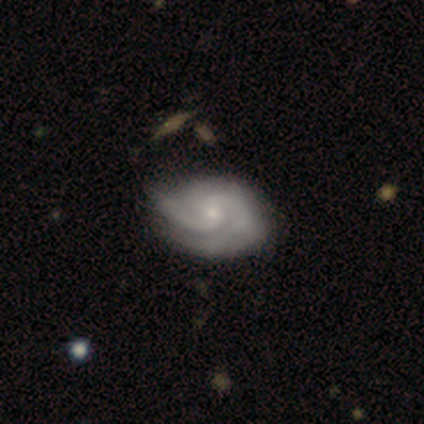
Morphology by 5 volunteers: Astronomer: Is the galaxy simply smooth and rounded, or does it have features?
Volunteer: featured or disk — 80%.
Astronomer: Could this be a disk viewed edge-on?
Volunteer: no — 100%.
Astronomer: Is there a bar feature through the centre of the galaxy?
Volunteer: no — 75%.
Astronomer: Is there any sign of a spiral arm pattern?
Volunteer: yes — 100%.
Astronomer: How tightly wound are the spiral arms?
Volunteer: tight — 75%.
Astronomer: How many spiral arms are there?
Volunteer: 2 — 50%, tied with can't tell at 50%.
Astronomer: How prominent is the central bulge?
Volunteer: moderate — 75%.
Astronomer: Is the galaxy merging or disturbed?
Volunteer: none — 50%, tied with minor disturbance at 50%.